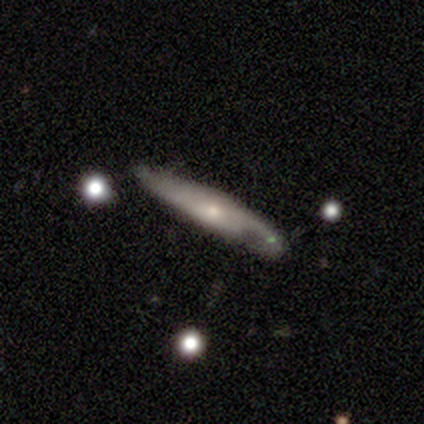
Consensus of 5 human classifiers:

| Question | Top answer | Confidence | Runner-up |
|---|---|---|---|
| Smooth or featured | smooth | 40% | tied: featured or disk (40%) |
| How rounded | cigar-shaped | 100% | — |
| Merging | minor disturbance | 75% | none (25%) |